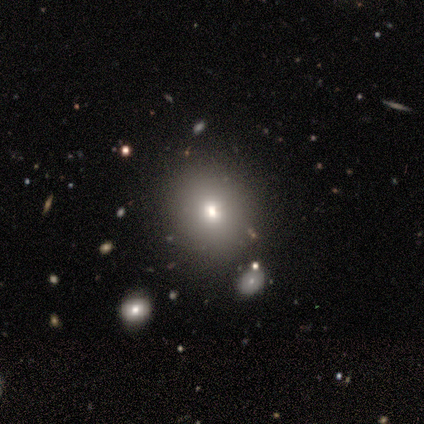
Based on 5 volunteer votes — Morphology: type=smooth (60%); roundness=in between (67%); merging=none (50%, tied with merger).